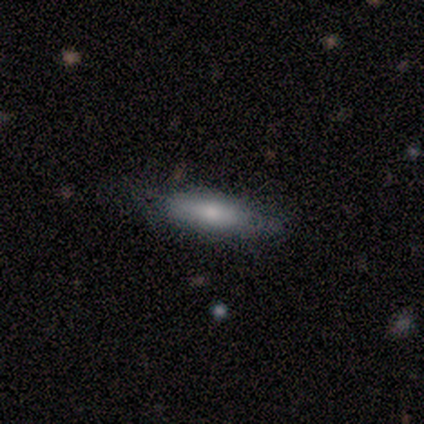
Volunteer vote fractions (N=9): Smooth or featured? smooth (56%)
How rounded? in between (60%)
Merging? none (78%)